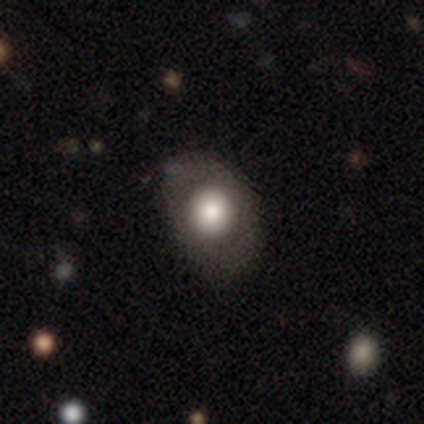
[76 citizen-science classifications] Q: Smooth or featured?
A: smooth (74%); runner-up: featured or disk (18%)
Q: How rounded?
A: in between (62%); runner-up: round (38%)
Q: Merging?
A: none (44%); runner-up: major disturbance (6%)